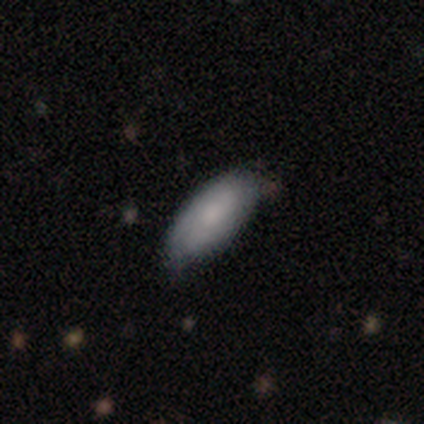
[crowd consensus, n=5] Overall: smooth (100%). How rounded: in between (80%). Merging: none (80%).